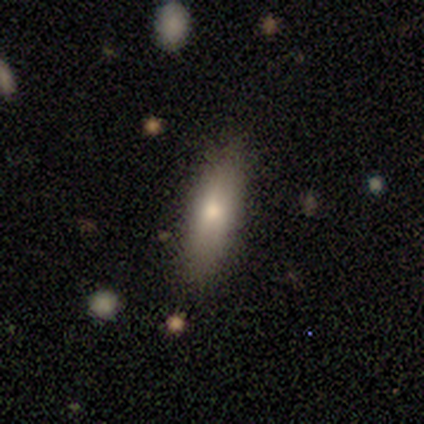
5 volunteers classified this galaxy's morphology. Smooth or featured: smooth — 100%
How rounded: cigar-shaped — 60% (in between — 40%)
Merging: none — 100%